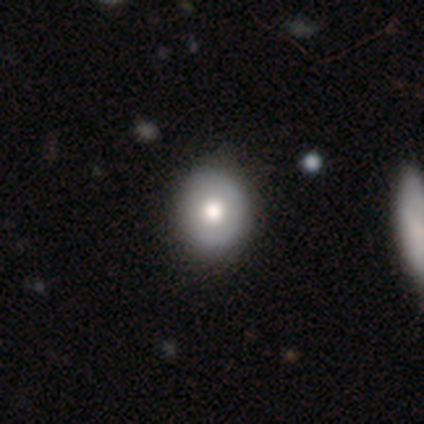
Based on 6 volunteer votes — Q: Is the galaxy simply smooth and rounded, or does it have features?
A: smooth — 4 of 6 (67%).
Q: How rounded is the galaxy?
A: round — 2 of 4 (50%, tied with in between).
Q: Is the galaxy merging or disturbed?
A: none — 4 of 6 (67%).